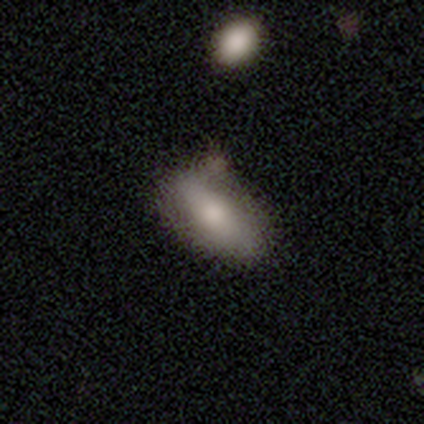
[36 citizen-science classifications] smooth-or-featured: smooth: 67% | featured or disk: 28% | star or artifact: 6%
  how-rounded: in between: 96% | cigar-shaped: 4% | round: 0%
  merging: none: 41% | minor disturbance: 21% | major disturbance: 12% | merger: 9%